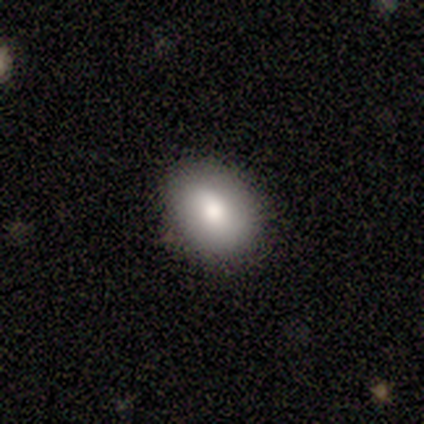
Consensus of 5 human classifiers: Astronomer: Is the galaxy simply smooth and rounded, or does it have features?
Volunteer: smooth — 100%.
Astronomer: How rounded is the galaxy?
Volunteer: in between — 100%.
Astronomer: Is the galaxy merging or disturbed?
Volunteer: none — 100%.